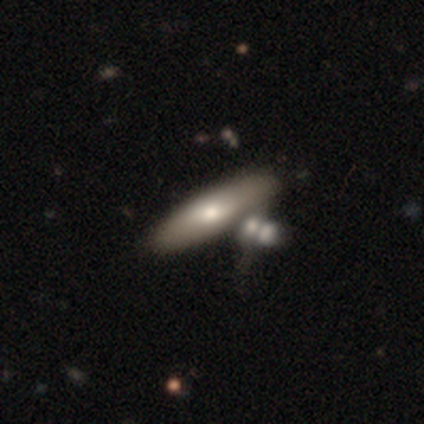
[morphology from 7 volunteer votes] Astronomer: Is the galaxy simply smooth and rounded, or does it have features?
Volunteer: featured or disk — 57% (runner-up: smooth, 43%).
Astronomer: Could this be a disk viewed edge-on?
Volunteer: yes — 75%.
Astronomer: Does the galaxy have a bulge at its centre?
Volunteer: rounded — 100%.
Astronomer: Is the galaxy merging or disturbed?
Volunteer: none — 43% (runner-up: merger, 29%).